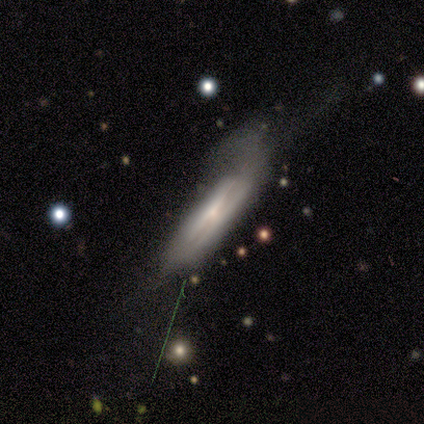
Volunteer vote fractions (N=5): Volunteers were most divided on "edge-on disk" (2-way tie): yes: 50%, no: 50%; "edge-on bulge" (2-way tie): none: 50%, rounded: 50%, boxy: 0%; "merging" (2-way tie): minor disturbance: 40%, major disturbance: 40%, none: 20%, merger: 0%. More confident: smooth or featured — featured or disk (80%).